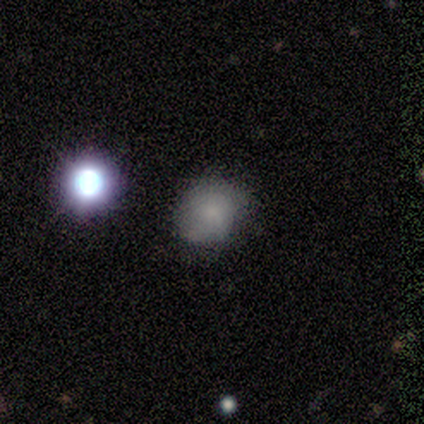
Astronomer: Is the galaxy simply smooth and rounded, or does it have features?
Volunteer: smooth — 75%.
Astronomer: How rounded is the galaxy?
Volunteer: round — 67%.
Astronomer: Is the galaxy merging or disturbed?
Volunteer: none — 75%.